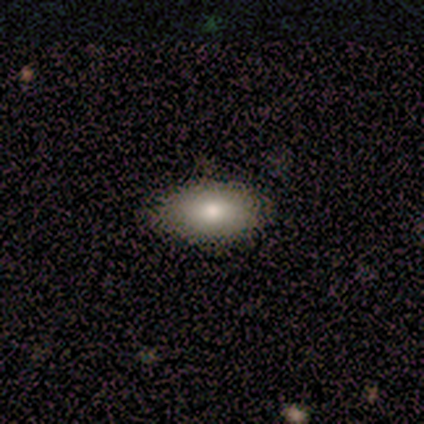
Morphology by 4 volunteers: A smooth galaxy with no disk features (100%) that is in between round and cigar-shaped (50%, tied with cigar-shaped).

Vote fractions:
- Smooth or featured? smooth: 100% / featured or disk: 0% / star or artifact: 0%
- How rounded? in between: 50% (tied) / cigar-shaped: 50% (tied) / round: 0%
- Merging? none: 75% / minor disturbance: 25% / major disturbance: 0% / merger: 0%